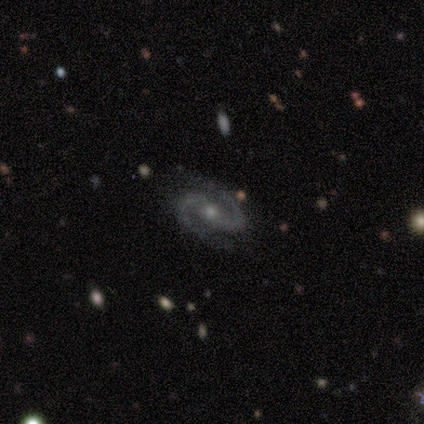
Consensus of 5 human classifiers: This is clearly a featured or disk galaxy (100%). It is clearly not viewed edge-on (100%). Bar: likely weak (60%). Spiral arm pattern: clearly yes (100%). Spiral arm count: clearly 2 (100%). Spiral winding: clearly medium (80%). Central bulge: marginally moderate (40%, tied with small). Merging: clearly none (80%).